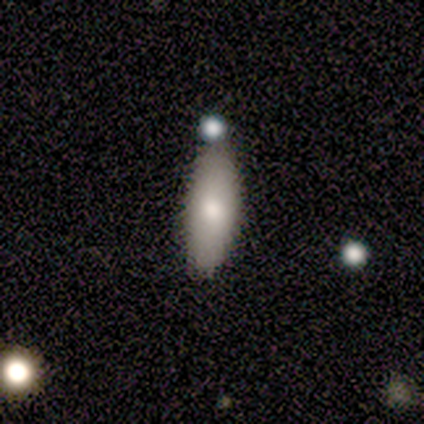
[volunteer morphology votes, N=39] Smooth or featured? smooth (87%)
How rounded? in between (65%)
Merging? none (65%)